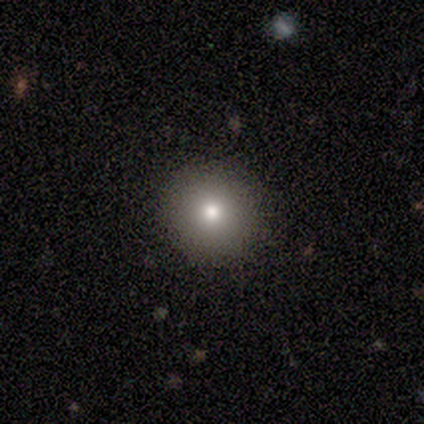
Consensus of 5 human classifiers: smooth-or-featured: smooth: 60% | star or artifact: 40% | featured or disk: 0%
  how-rounded: round: 100% | in between: 0% | cigar-shaped: 0%
  merging: none: 100% | minor disturbance: 0% | major disturbance: 0% | merger: 0%